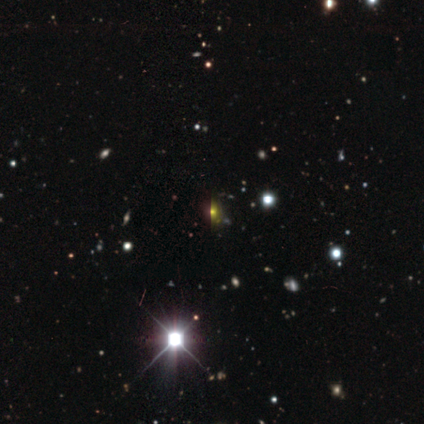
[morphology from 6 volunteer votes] Q: Smooth or featured?
A: star or artifact (100%)